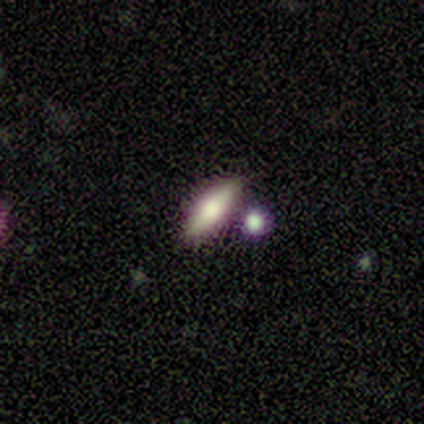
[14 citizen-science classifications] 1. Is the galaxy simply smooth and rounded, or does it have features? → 64% smooth, 21% star or artifact, 14% featured or disk.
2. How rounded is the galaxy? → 56% cigar-shaped, 44% in between, 0% round.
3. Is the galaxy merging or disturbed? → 73% none, 18% major disturbance, 9% minor disturbance, 0% merger.